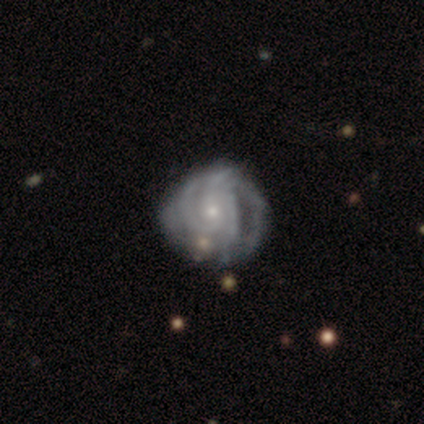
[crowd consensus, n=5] Smooth or featured? 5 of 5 (100%) said featured or disk. Edge-on disk? 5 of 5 (100%) said no. Bar? 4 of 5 (80%) said no. Spiral arms? 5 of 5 (100%) said yes. Spiral winding? 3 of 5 (60%) said tight. Spiral arm count? 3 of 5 (60%) said 4. Bulge size? 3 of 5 (60%) said small. Merging? 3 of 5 (60%) said minor disturbance.